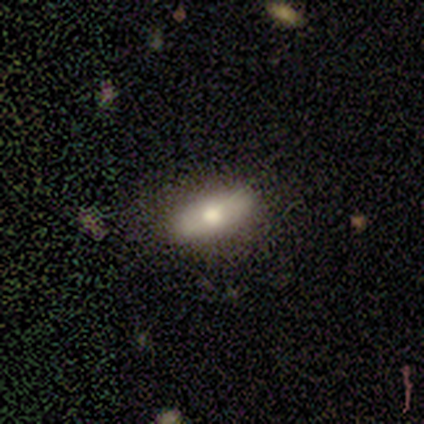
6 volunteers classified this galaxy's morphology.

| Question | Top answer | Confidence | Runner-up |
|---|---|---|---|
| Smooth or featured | smooth | 67% | featured or disk (33%) |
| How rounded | in between | 100% | — |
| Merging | none | 100% | — |